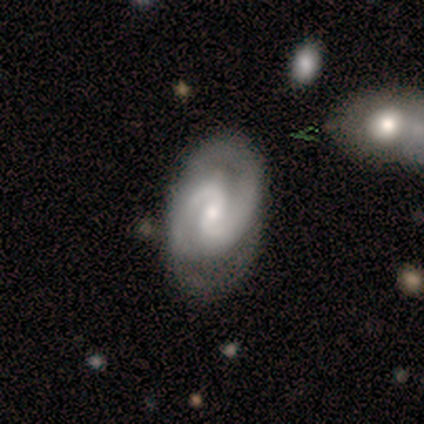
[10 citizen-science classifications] Smooth or featured? featured or disk (100%)
Edge-on disk? no (100%)
Bar? no (50%)
Spiral arms? yes (100%)
Spiral winding? tight (50%)
Spiral arm count? 2 (90%)
Bulge size? small (60%)
Merging? none (100%)